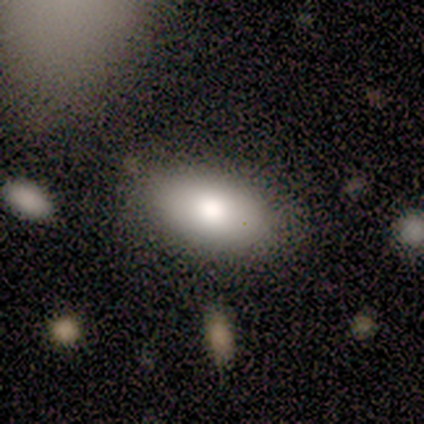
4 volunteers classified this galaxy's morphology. A smooth galaxy with no disk features (75%) that is in between round and cigar-shaped (100%). Merging: none (75%).